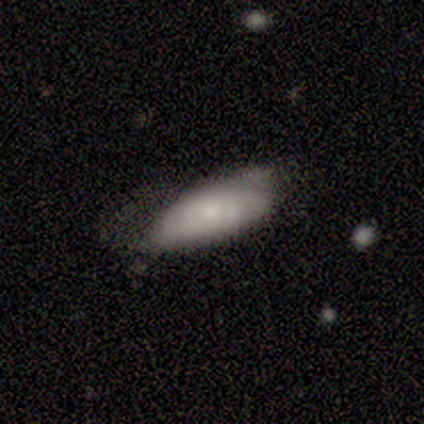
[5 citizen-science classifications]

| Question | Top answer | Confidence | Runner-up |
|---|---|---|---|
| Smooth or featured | featured or disk | 80% | smooth (20%) |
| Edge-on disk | no | 75% | yes (25%) |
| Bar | no | 100% | — |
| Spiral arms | yes | 67% | no (33%) |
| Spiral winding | tight | 50% | tied: medium (50%) |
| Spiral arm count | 2 | 50% | tied: can't tell (50%) |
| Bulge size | small | 67% | large (33%) |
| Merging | none | 40% | tied: minor disturbance (40%) |